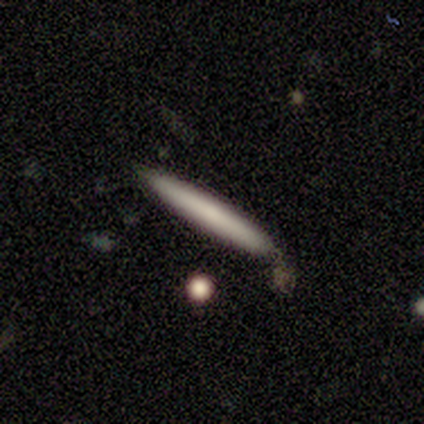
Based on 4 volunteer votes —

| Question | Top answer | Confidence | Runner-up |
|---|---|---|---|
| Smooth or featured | smooth | 50% | tied: featured or disk (50%) |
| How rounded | cigar-shaped | 100% | — |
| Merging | none | 75% | minor disturbance (25%) |